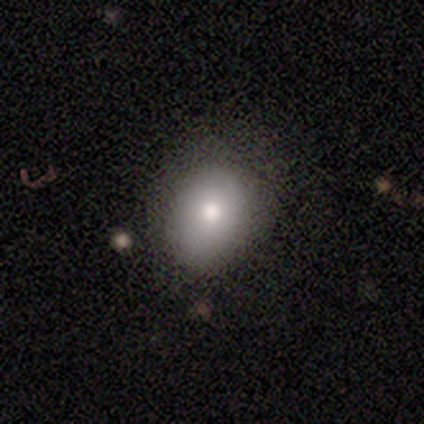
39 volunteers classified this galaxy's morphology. This appears to be a smooth galaxy with no disk features (79%) that is in between round and cigar-shaped (52%). Merging: none (86%).